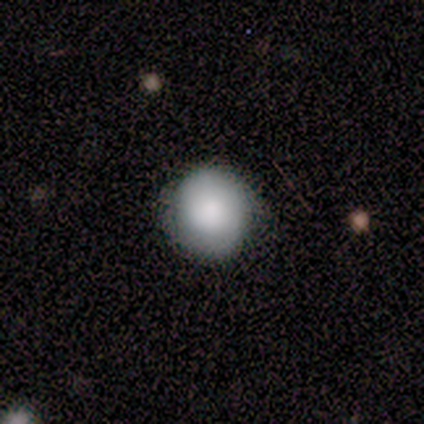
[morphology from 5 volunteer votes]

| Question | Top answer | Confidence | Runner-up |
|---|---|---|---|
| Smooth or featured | smooth | 100% | — |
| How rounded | round | 100% | — |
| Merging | none | 80% | minor disturbance (20%) |